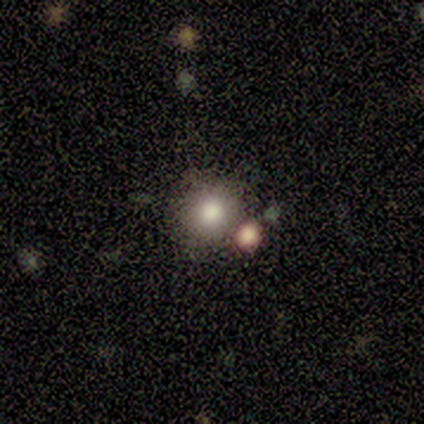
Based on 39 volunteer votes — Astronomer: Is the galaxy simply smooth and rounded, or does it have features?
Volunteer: smooth — 72%.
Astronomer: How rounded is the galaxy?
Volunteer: round — 93%.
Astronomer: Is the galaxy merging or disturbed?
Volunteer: none — 61%.